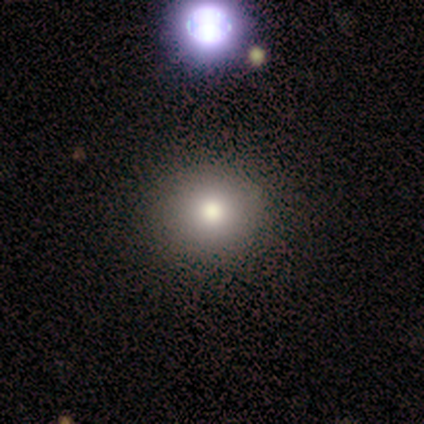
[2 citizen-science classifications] Q: Smooth or featured?
A: smooth (100%)
Q: How rounded?
A: round (100%)
Q: Merging?
A: none (100%)